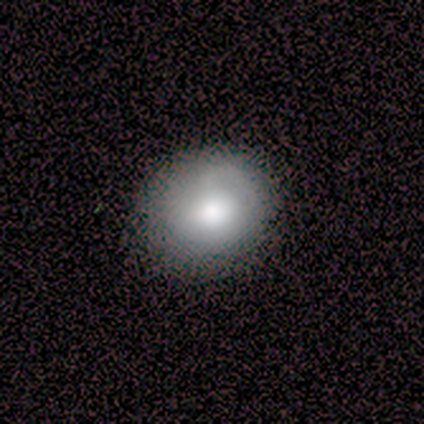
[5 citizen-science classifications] Volunteers were most divided on "merging": none: 60%, minor disturbance: 40%, major disturbance: 0%, merger: 0%. More confident: smooth or featured — smooth (100%); how rounded — round (80%).